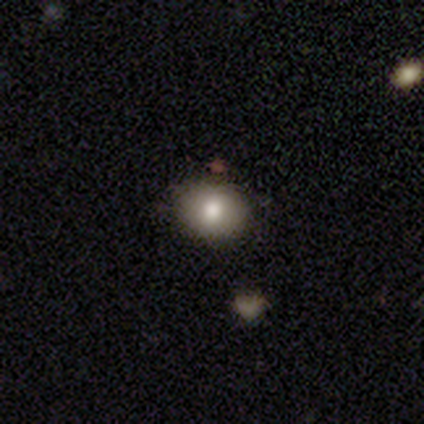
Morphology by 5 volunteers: type=smooth (100%); roundness=in between (80%); merging=none (80%).